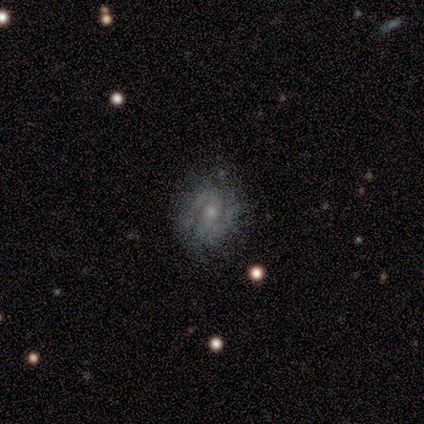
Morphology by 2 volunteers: This is clearly a featured or disk galaxy (100%). It is clearly not viewed edge-on (100%). Bar: clearly no (100%). Spiral arm pattern: clearly yes (100%). Spiral arm count: possibly 2 (50%, tied with can't tell). Spiral winding: possibly tight (50%, tied with medium). Central bulge: clearly small (100%). Merging: possibly none (50%, tied with minor disturbance).